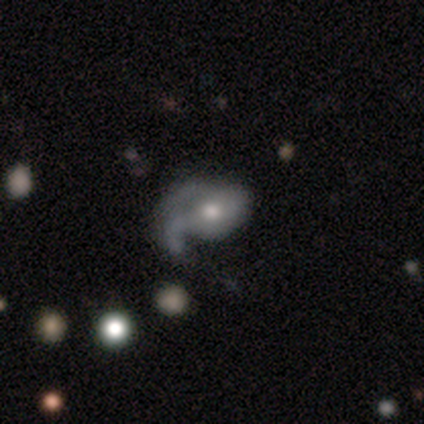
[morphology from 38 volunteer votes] Overall: featured or disk (66%). Edge-on disk: no (96%). Bar: no (62%; weak 29%). Spiral arms: yes (79%). Spiral arm count: 1 (58%; 2 21%). Spiral winding: loose (58%; medium 37%). Bulge size: moderate (83%). Merging: major disturbance (38%; minor disturbance 32%).